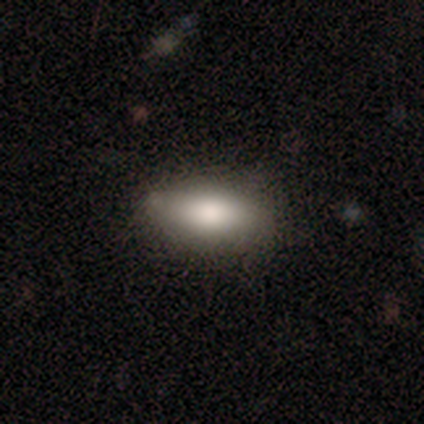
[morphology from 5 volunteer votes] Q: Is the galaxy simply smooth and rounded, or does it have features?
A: smooth — 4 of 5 (80%).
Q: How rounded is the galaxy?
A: in between — 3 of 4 (75%).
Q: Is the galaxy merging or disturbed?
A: none — 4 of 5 (80%).